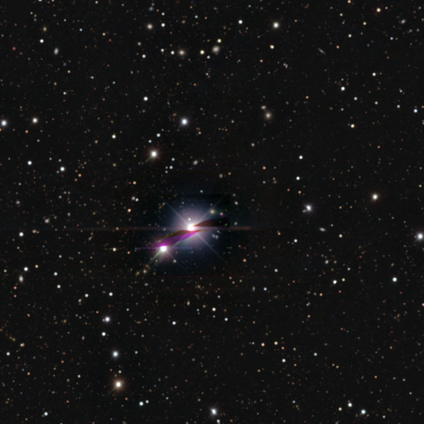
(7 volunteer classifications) A star or artifact, not a galaxy (86%).

Vote fractions:
- Smooth or featured? star or artifact: 86% / smooth: 14% / featured or disk: 0%